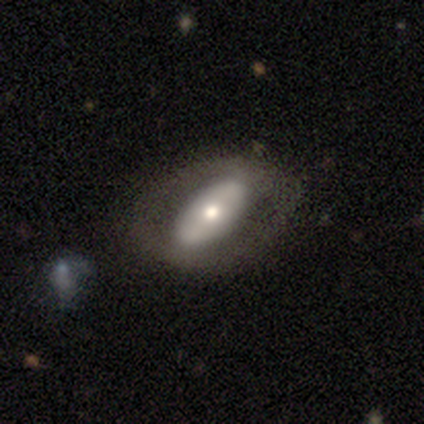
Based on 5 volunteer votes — This is clearly a smooth galaxy (80%). How rounded: likely in between (75%). Merging: clearly none (80%).